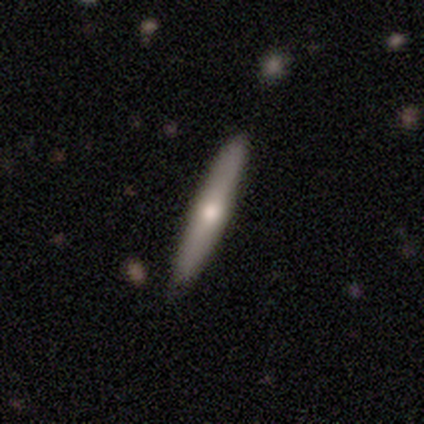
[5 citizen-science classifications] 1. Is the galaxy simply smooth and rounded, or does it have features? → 80% featured or disk, 20% smooth, 0% star or artifact.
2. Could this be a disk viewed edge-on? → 75% yes, 25% no.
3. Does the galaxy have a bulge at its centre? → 67% none, 33% rounded, 0% boxy.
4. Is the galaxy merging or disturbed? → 100% none, 0% minor disturbance, 0% major disturbance, 0% merger.